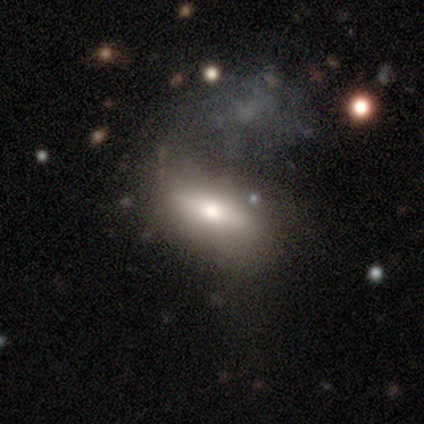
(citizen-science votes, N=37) A smooth galaxy with no disk features (57%) that is in between round and cigar-shaped (81%).

Vote fractions:
- Smooth or featured? smooth: 57% / featured or disk: 41% / star or artifact: 3%
- How rounded? in between: 81% / cigar-shaped: 19% / round: 0%
- Merging? none: 22% / major disturbance: 19% / merger: 14% / minor disturbance: 6%